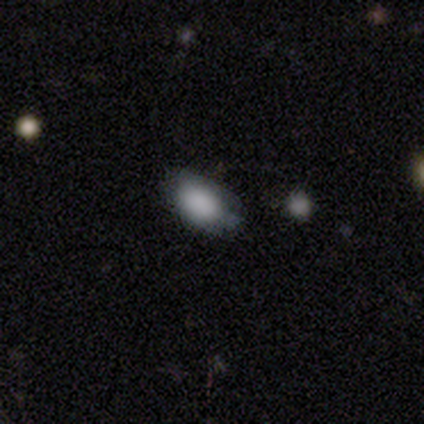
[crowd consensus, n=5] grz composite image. It shows a smooth galaxy with no disk features (100%) that is in between round and cigar-shaped (100%). Merging: none (80%).